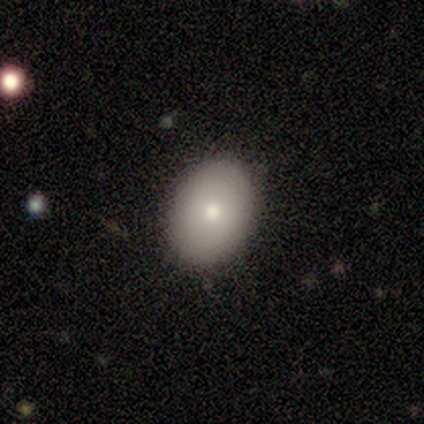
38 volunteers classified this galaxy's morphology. Smooth or featured: smooth — 82% (featured or disk — 13%)
How rounded: in between — 71% (round — 29%)
Merging: none — 89% (minor disturbance — 11%)